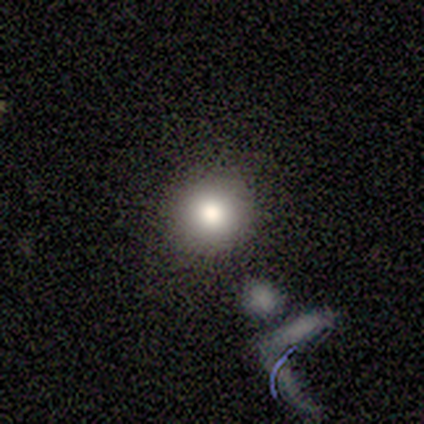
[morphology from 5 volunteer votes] smooth-or-featured: smooth: 80% | featured or disk: 20% | star or artifact: 0%
  how-rounded: round: 50% (tied) | in between: 50% (tied) | cigar-shaped: 0%
  merging: none: 60% | minor disturbance: 20% | merger: 20% | major disturbance: 0%